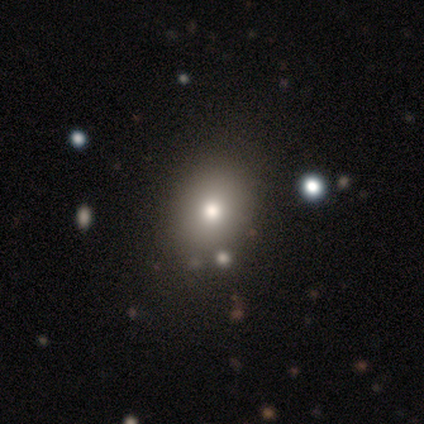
Smooth or featured? 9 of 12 (75%) said smooth. How rounded? 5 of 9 (56%) said round. Merging? 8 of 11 (73%) said none.